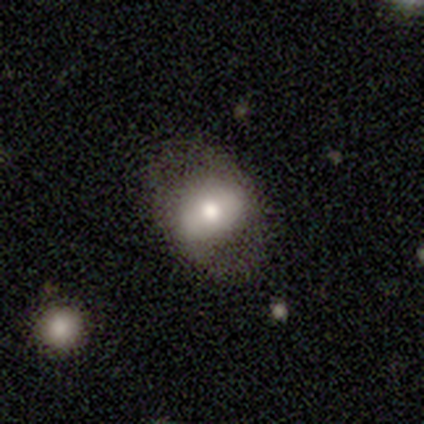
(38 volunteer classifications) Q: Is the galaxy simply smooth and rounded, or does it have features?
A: smooth — 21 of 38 (55%).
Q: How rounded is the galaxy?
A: in between — 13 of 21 (62%).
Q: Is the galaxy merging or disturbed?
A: none — 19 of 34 (56%).